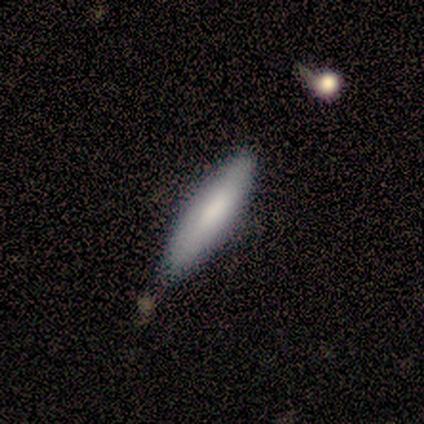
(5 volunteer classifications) Volunteers were most divided on "merging" (2-way tie): none: 40%, minor disturbance: 40%, merger: 20%, major disturbance: 0%. More confident: how rounded — cigar-shaped (100%); smooth or featured — smooth (60%).